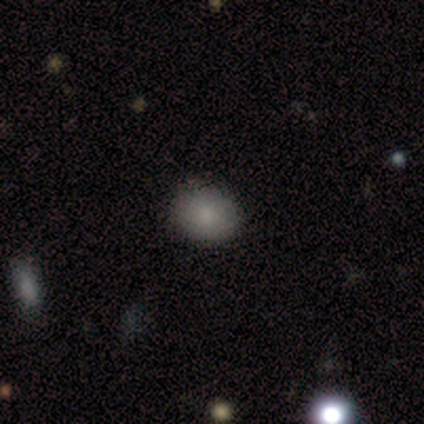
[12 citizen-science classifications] smooth 100%, featured or disk 0%, star or artifact 0%. Down the decision tree: how rounded — round (75%); merging — none (83%).